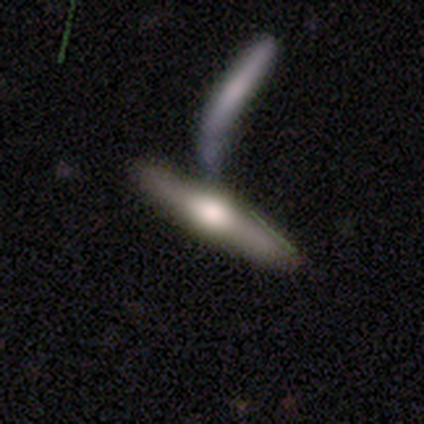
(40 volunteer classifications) Smooth or featured: featured or disk — 65% (smooth — 28%)
Edge-on disk: yes — 88% (no — 12%)
Edge-on bulge: rounded — 91% (boxy — 9%)
Merging: merger — 54% (none — 32%)